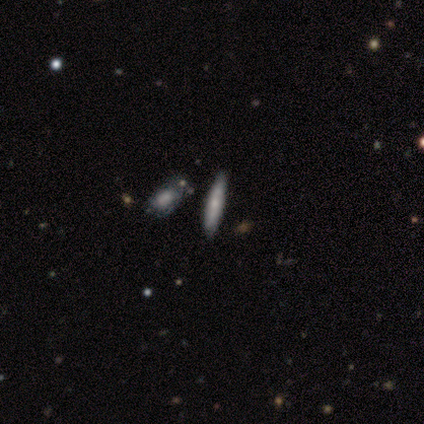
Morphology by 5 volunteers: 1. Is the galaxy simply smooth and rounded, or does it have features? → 60% smooth, 20% featured or disk, 20% star or artifact.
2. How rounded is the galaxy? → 100% cigar-shaped, 0% round, 0% in between.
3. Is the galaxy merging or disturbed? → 100% none, 0% minor disturbance, 0% major disturbance, 0% merger.